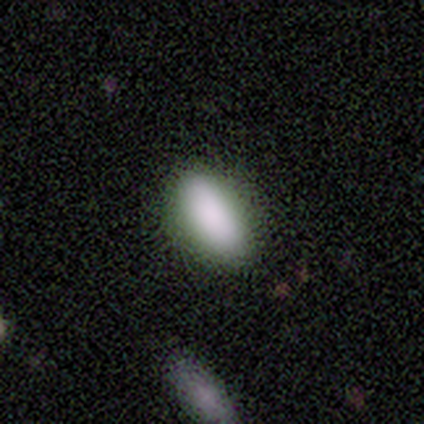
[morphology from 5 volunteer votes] Smooth or featured?
  - smooth: 40% * (tied)
  - star or artifact: 40% * (tied)
  - featured or disk: 20%
How rounded?
  - in between: 50% * (tied)
  - cigar-shaped: 50% * (tied)
  - round: 0%
Merging?
  - none: 100% *
  - minor disturbance: 0%
  - major disturbance: 0%
  - merger: 0%